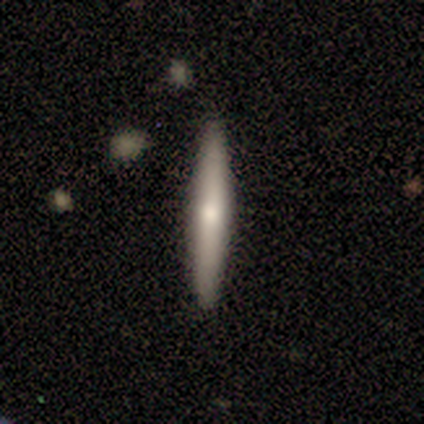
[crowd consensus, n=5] Morphology: type=featured or disk (60%); edge-on=yes (100%); edge-on bulge=rounded (67%); merging=none (100%).